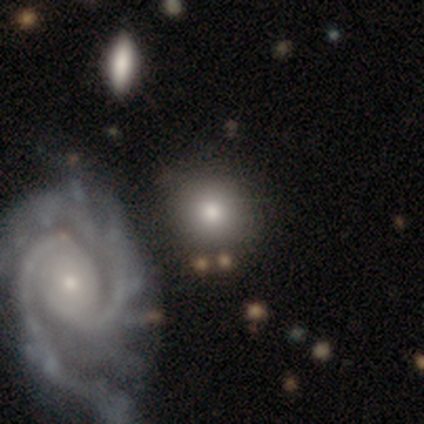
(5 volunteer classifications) smooth_or_featured: smooth (p=0.60) [alt: featured or disk p=0.40]
how_rounded: round (p=1.00)
merging: none (p=0.80) [alt: merger p=0.20]